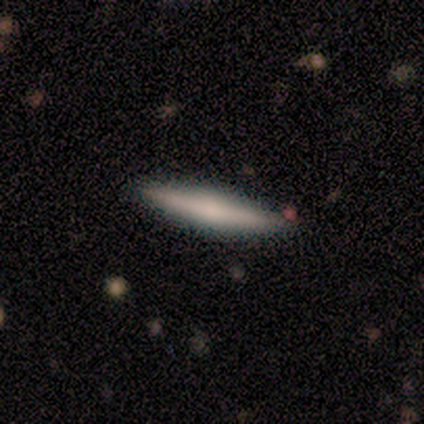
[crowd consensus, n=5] smooth-or-featured: smooth: 60% | featured or disk: 20% | star or artifact: 20%
  how-rounded: cigar-shaped: 67% | in between: 33% | round: 0%
  merging: none: 100% | minor disturbance: 0% | major disturbance: 0% | merger: 0%